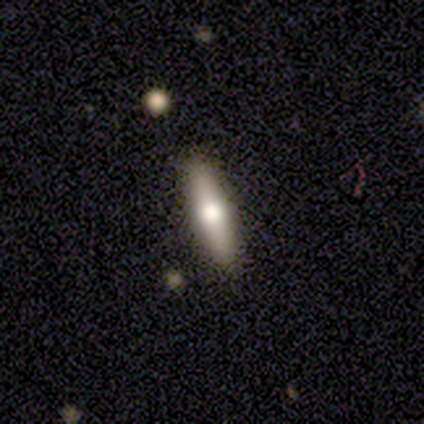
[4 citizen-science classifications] smooth_or_featured: smooth (p=0.75) [alt: featured or disk p=0.25]
how_rounded: cigar-shaped (p=1.00)
merging: none (p=0.75) [alt: minor disturbance p=0.25]